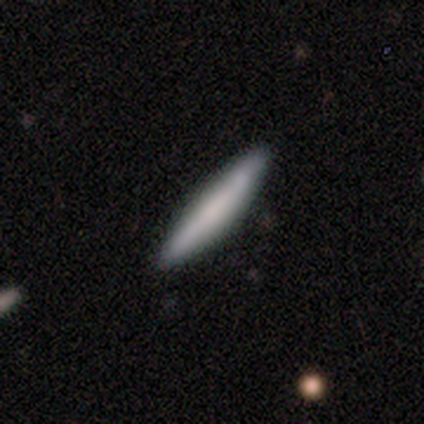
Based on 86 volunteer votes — A smooth galaxy with no disk features (65%) that is cigar-shaped (91%).

Vote fractions:
- Smooth or featured? smooth: 65% / featured or disk: 27% / star or artifact: 8%
- How rounded? cigar-shaped: 91% / in between: 9% / round: 0%
- Merging? none: 89% / minor disturbance: 9% / merger: 3% / major disturbance: 0%